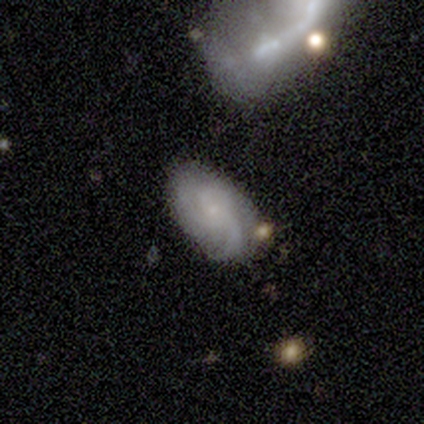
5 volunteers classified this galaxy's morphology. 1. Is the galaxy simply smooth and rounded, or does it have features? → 60% featured or disk, 20% smooth, 20% star or artifact.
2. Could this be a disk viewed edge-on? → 100% no, 0% yes.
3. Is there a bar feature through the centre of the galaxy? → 67% no, 33% weak, 0% strong.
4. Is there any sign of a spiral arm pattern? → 100% yes, 0% no.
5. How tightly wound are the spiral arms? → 67% medium, 33% loose, 0% tight.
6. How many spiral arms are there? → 67% can't tell, 33% 3, 0% 1, 0% 2, 0% 4, 0% more than 4.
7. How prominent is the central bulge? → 67% moderate, 33% none, 0% dominant, 0% large, 0% small.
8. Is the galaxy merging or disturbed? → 75% none, 25% merger, 0% minor disturbance, 0% major disturbance.